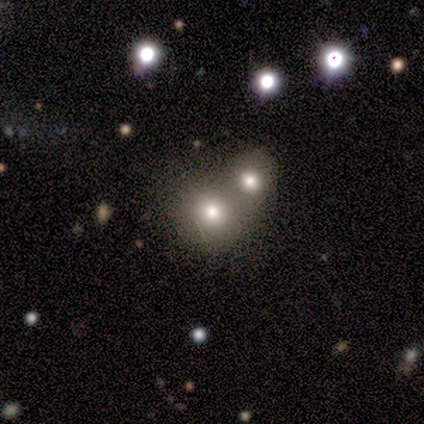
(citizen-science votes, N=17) Overall: smooth (65%). How rounded: round (55%; in between 45%). Merging: merger (77%).